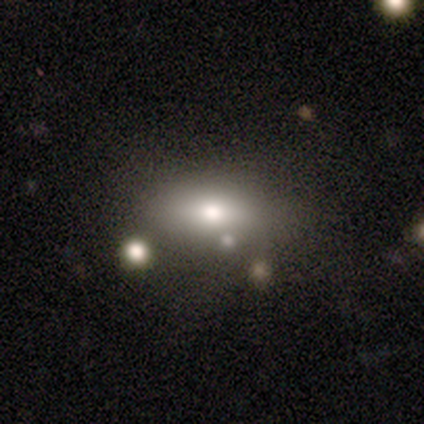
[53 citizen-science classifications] smooth_or_featured: smooth (p=0.64) [alt: featured or disk p=0.32]
how_rounded: in between (p=0.82) [alt: cigar-shaped p=0.15]
merging: none (p=0.67) [alt: minor disturbance p=0.14]